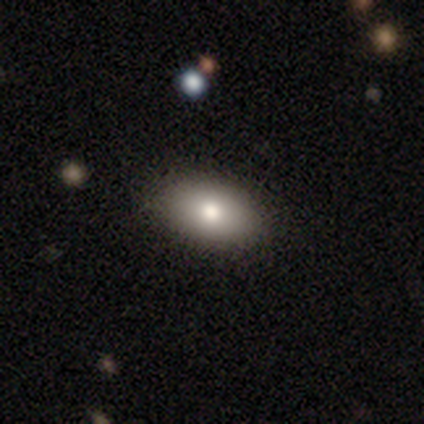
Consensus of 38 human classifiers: Smooth or featured: smooth — 87% (featured or disk — 11%)
How rounded: in between — 100%
Merging: none — 89% (minor disturbance — 8%)